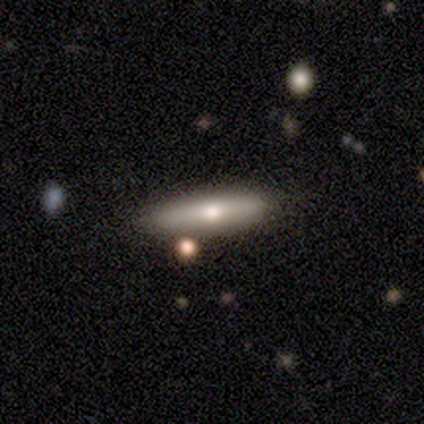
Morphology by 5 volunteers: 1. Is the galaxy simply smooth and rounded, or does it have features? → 60% featured or disk, 40% smooth, 0% star or artifact.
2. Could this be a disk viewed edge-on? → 100% yes, 0% no.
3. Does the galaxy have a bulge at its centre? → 100% rounded, 0% boxy, 0% none.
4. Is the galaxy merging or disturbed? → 80% none, 20% minor disturbance, 0% major disturbance, 0% merger.